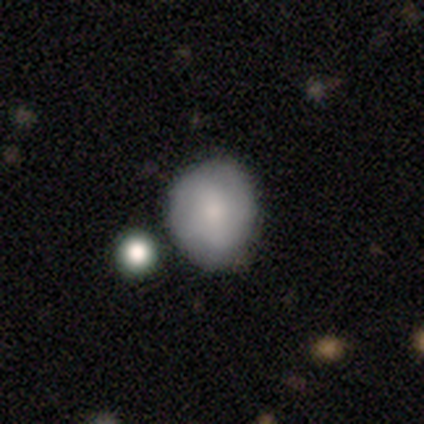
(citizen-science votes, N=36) Smooth or featured: smooth — 67% (featured or disk — 31%)
How rounded: round — 67% (in between — 33%)
Merging: none — 66% (minor disturbance — 31%)